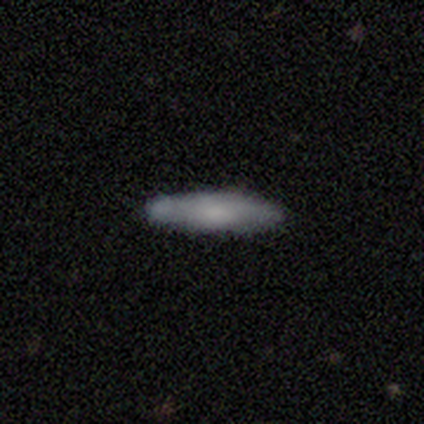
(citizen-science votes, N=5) Q: Smooth or featured?
A: smooth (60%); runner-up: featured or disk (40%)
Q: How rounded?
A: cigar-shaped (100%)
Q: Merging?
A: none (60%); runner-up: minor disturbance (40%)